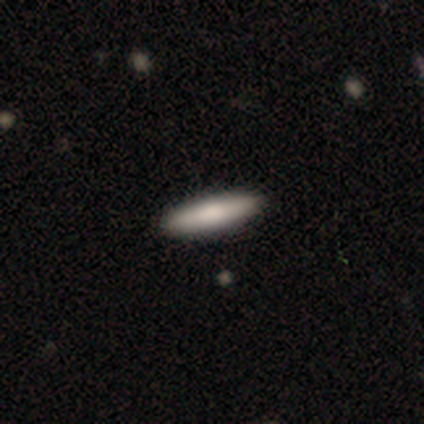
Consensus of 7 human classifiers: smooth-or-featured: smooth: 71% | featured or disk: 29% | star or artifact: 0%
  how-rounded: cigar-shaped: 80% | in between: 20% | round: 0%
  merging: none: 86% | minor disturbance: 14% | major disturbance: 0% | merger: 0%